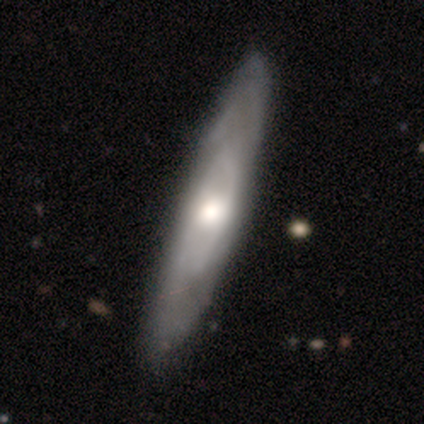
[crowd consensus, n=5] This appears to be a featured or disk galaxy (80%) viewed edge-on (50%, tied with no) with no central bulge (50%, tied with rounded). Merging: none (80%).